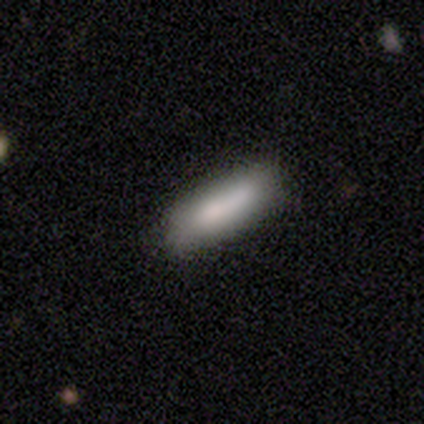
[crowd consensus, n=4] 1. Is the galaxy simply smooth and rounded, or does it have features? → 75% smooth, 25% featured or disk, 0% star or artifact.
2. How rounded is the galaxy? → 67% in between, 33% cigar-shaped, 0% round.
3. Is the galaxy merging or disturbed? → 75% none, 25% major disturbance, 0% minor disturbance, 0% merger.